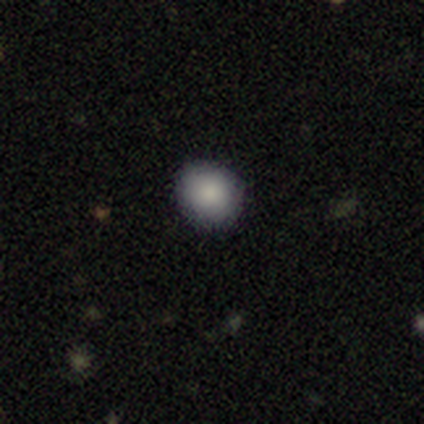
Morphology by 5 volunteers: smooth-or-featured: smooth: 100% | featured or disk: 0% | star or artifact: 0%
  how-rounded: round: 100% | in between: 0% | cigar-shaped: 0%
  merging: none: 100% | minor disturbance: 0% | major disturbance: 0% | merger: 0%